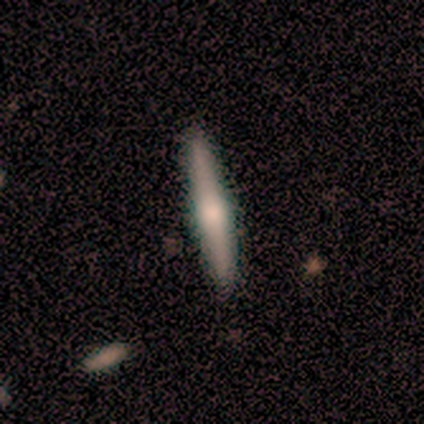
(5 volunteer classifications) Smooth or featured: smooth — 60% (featured or disk — 20%)
How rounded: cigar-shaped — 100%
Merging: none — 100%